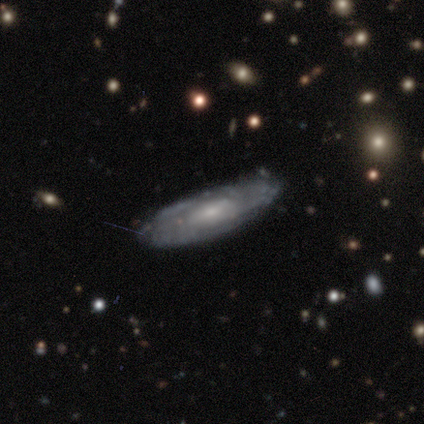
Overall: featured or disk (100%). Edge-on disk: no (100%). Bar: no (50%; strong 25%). Spiral arms: yes (50%, tied with no). Spiral arm count: 2 (50%, tied with can't tell). Spiral winding: tight (50%, tied with medium). Bulge size: moderate (75%). Merging: none (50%; minor disturbance 25%).